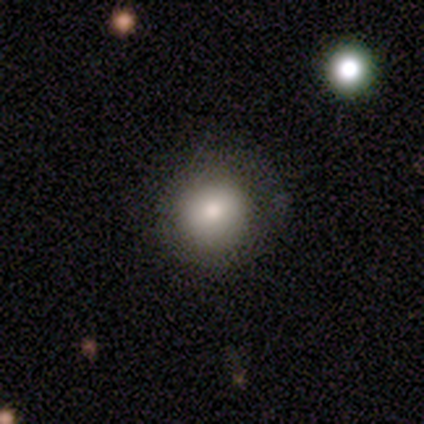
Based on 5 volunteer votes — A smooth galaxy with no disk features (80%) that is round (100%). Merging: none (75%).